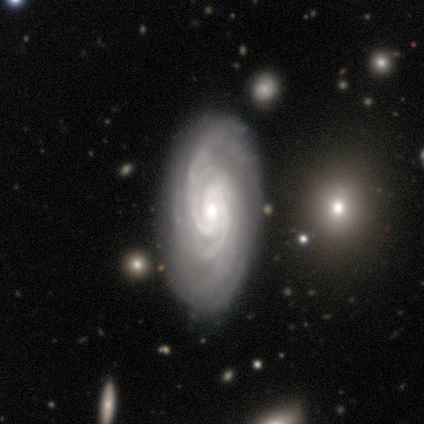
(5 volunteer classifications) A featured or disk galaxy (100%) with a weak bar (40%, tied with no), more than 4 (40%) tight (100%) spiral arms (100%) and a moderate central bulge (100%).

Vote fractions:
- Smooth or featured? featured or disk: 100% / smooth: 0% / star or artifact: 0%
- Edge-on disk? no: 100% / yes: 0%
- Bar? weak: 40% (tied) / no: 40% (tied) / strong: 20%
- Spiral arms? yes: 100% / no: 0%
- Spiral winding? tight: 100% / medium: 0% / loose: 0%
- Spiral arm count? more than 4: 40% / 2: 20% / 3: 20% / can't tell: 20% / 1: 0% / 4: 0%
- Bulge size? moderate: 100% / dominant: 0% / large: 0% / small: 0% / none: 0%
- Merging? none: 100% / minor disturbance: 0% / major disturbance: 0% / merger: 0%